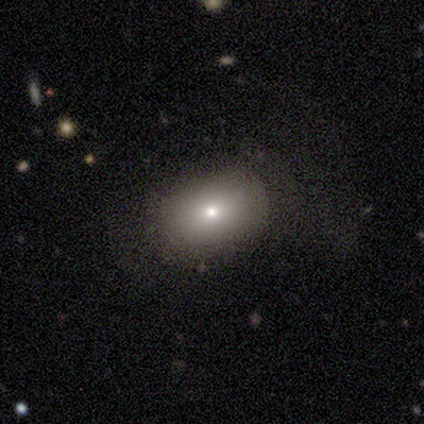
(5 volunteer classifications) smooth 80%, star or artifact 20%, featured or disk 0%. Down the decision tree: how rounded — round (75%); merging — none (100%).